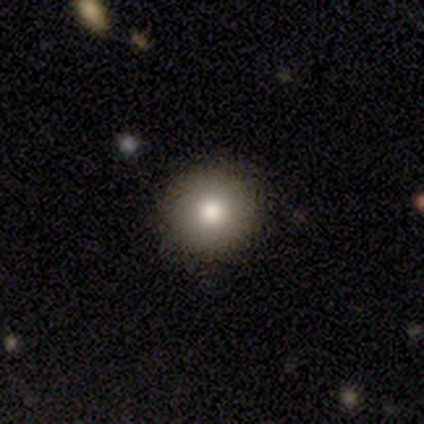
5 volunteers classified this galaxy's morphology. A smooth galaxy with no disk features (100%) that is round (100%).

Vote fractions:
- Smooth or featured? smooth: 100% / featured or disk: 0% / star or artifact: 0%
- How rounded? round: 100% / in between: 0% / cigar-shaped: 0%
- Merging? none: 100% / minor disturbance: 0% / major disturbance: 0% / merger: 0%